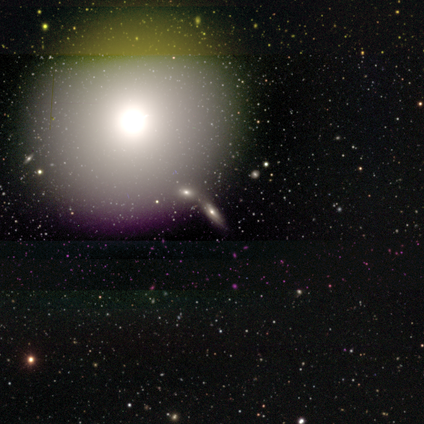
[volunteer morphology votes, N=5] Overall: smooth (40%, tied with star or artifact). How rounded: round (100%). Merging: none (67%; minor disturbance 33%).